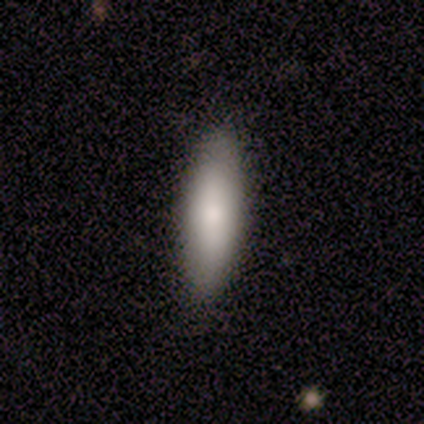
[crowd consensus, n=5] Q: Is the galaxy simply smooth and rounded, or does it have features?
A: smooth — 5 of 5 (100%).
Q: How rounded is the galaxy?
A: cigar-shaped — 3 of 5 (60%).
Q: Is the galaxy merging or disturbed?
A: none — 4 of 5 (80%).